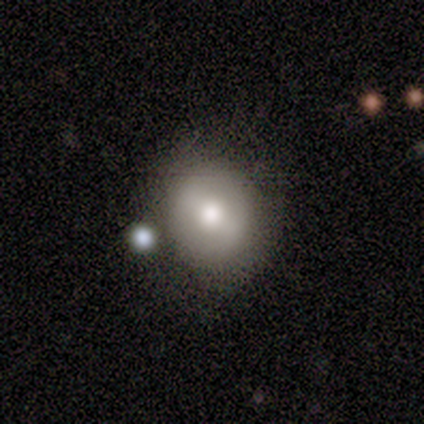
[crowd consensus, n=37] smooth 54%, featured or disk 38%, star or artifact 8%. Down the decision tree: how rounded — round (80%); merging — none (76%).